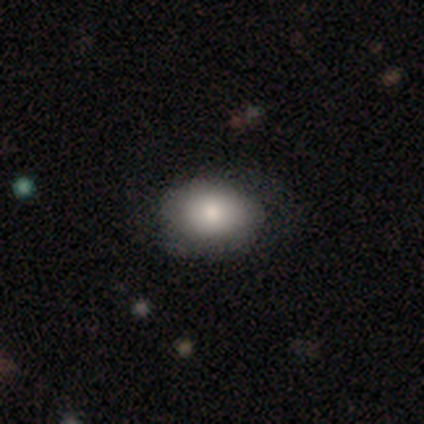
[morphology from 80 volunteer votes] Q: Smooth or featured?
A: smooth (81%); runner-up: featured or disk (12%)
Q: How rounded?
A: in between (71%); runner-up: round (29%)
Q: Merging?
A: none (76%); runner-up: minor disturbance (13%)